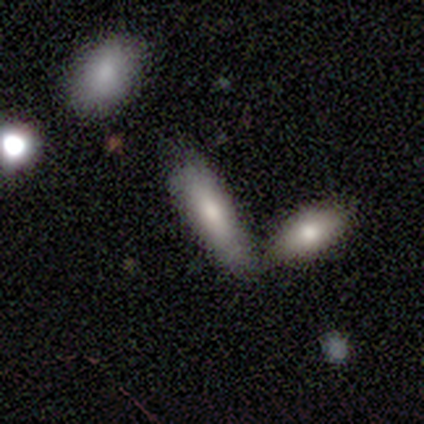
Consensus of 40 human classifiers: smooth 85%, featured or disk 15%, star or artifact 0%. Down the decision tree: how rounded — cigar-shaped (53%); merging — merger (42%).